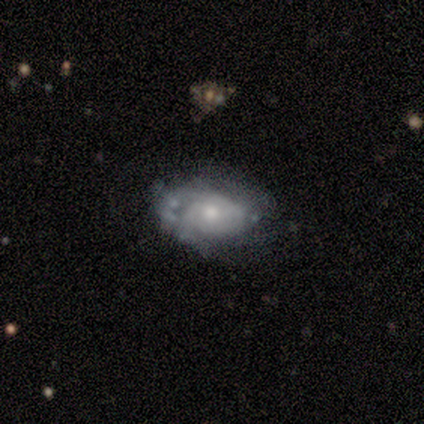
Smooth or featured? featured or disk (60%)
Edge-on disk? no (100%)
Bar? no (67%)
Spiral arms? yes (67%)
Spiral winding? tight (100%)
Spiral arm count? 2 (50%, tied with 3)
Bulge size? moderate (100%)
Merging? none (60%)